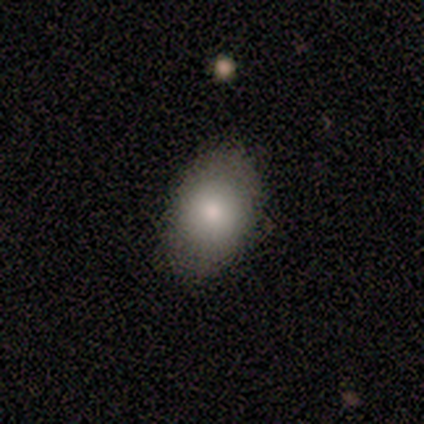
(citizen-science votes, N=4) Smooth or featured?
  - smooth: 100% *
  - featured or disk: 0%
  - star or artifact: 0%
How rounded?
  - in between: 100% *
  - round: 0%
  - cigar-shaped: 0%
Merging?
  - none: 100% *
  - minor disturbance: 0%
  - major disturbance: 0%
  - merger: 0%